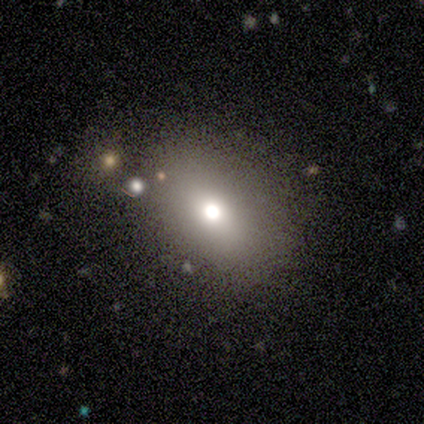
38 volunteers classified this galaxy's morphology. Smooth or featured? 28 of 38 (74%) said smooth. How rounded? 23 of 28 (82%) said in between. Merging? 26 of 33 (79%) said none.